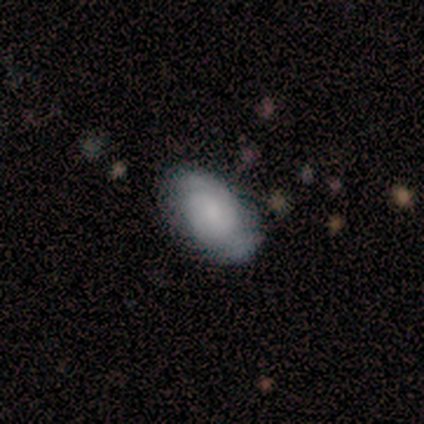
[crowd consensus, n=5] A smooth galaxy with no disk features (80%) that is in between round and cigar-shaped (100%). Merging: none (60%).